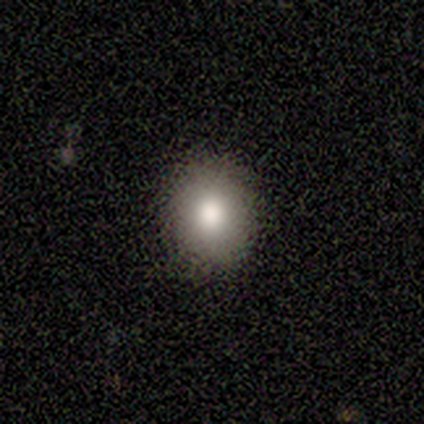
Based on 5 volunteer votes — smooth_or_featured: smooth (p=0.80) [alt: star or artifact p=0.20]
how_rounded: round (p=0.50) [tied with: in between p=0.50]
merging: none (p=1.00)